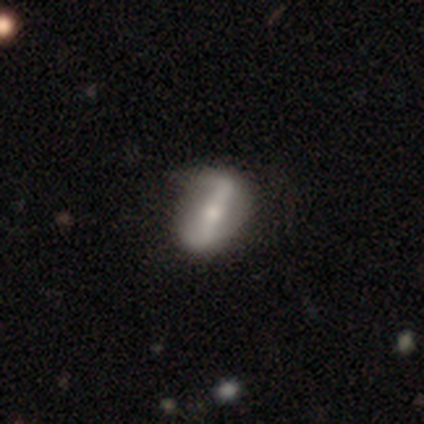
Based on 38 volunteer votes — Smooth or featured? featured or disk (87%)
Edge-on disk? no (79%)
Bar? strong (77%)
Spiral arms? yes (62%)
Spiral winding? loose (88%)
Spiral arm count? 2 (88%)
Bulge size? small (50%)
Merging? none (38%)